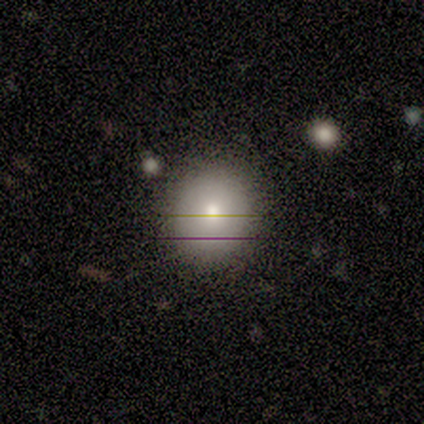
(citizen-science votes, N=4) Smooth or featured? 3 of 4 (75%) said smooth. How rounded? 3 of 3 (100%) said round. Merging? 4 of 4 (100%) said none.